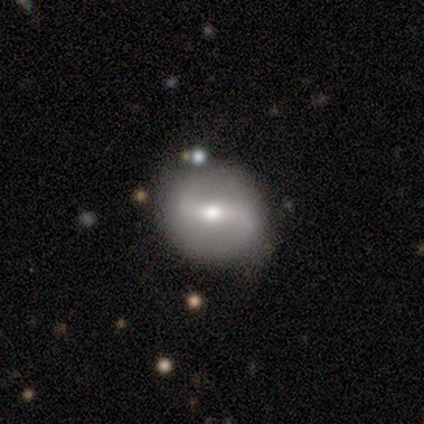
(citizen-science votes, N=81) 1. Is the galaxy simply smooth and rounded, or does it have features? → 54% featured or disk, 30% smooth, 16% star or artifact.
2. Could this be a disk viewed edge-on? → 89% no, 11% yes.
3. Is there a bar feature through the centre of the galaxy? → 62% strong, 33% weak, 5% no.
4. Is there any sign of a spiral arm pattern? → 74% yes, 26% no.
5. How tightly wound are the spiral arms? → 55% loose, 28% medium, 17% tight.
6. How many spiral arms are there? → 86% 2, 7% 1, 7% can't tell, 0% 3, 0% 4, 0% more than 4.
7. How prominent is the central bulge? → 77% moderate, 15% small, 5% large, 3% dominant, 0% none.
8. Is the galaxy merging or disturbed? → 78% none, 21% minor disturbance, 1% major disturbance, 0% merger.